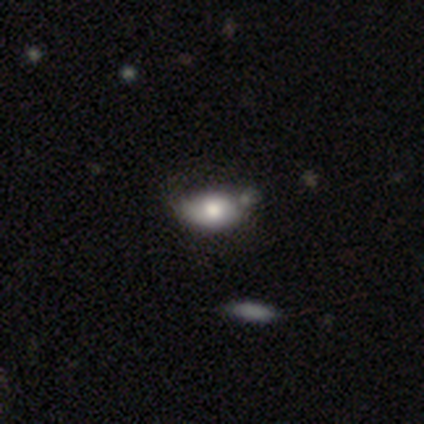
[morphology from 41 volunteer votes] type=smooth (63%); roundness=in between (100%); merging=none (49%).